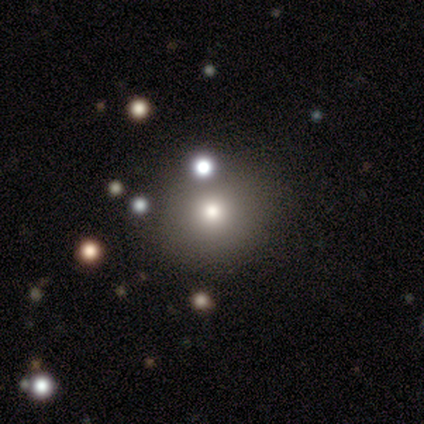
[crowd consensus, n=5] Smooth or featured? smooth (80%)
How rounded? round (75%)
Merging? none (60%)